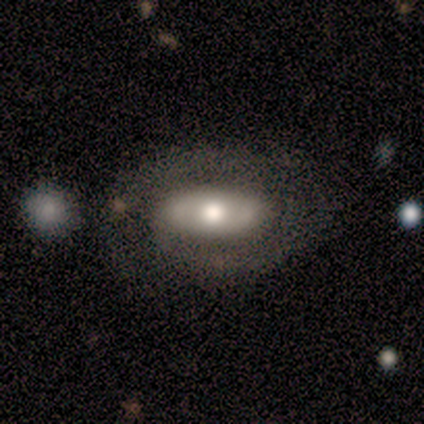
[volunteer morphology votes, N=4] Q: Smooth or featured?
A: smooth (75%); runner-up: featured or disk (25%)
Q: How rounded?
A: in between (100%)
Q: Merging?
A: none (50%); runner-up: minor disturbance (25%)